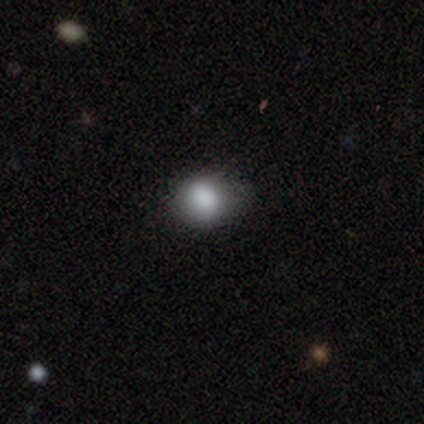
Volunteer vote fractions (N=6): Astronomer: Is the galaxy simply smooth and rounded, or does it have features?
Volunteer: smooth — 83%.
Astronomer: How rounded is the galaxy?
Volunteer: round — 100%.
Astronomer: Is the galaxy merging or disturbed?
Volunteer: none — 80%.